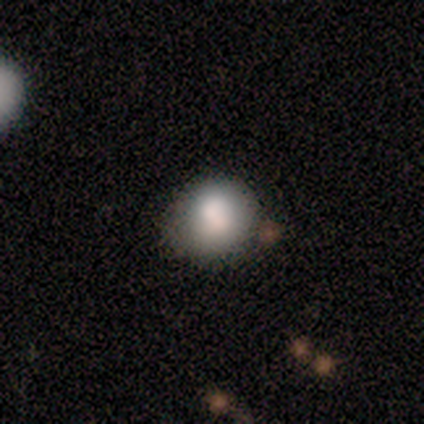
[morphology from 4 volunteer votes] A smooth galaxy with no disk features (50%) that is round (100%).

Vote fractions:
- Smooth or featured? smooth: 50% / featured or disk: 25% / star or artifact: 25%
- How rounded? round: 100% / in between: 0% / cigar-shaped: 0%
- Merging? none: 67% / merger: 33% / minor disturbance: 0% / major disturbance: 0%